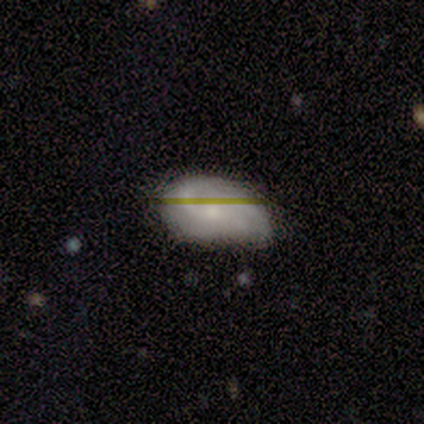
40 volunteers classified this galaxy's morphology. This is possibly a featured or disk galaxy (52%). It is clearly not viewed edge-on (90%). Bar: likely no (63%). Spiral arm pattern: clearly yes (95%). Spiral arm count: possibly 2 (50%). Spiral winding: marginally medium (44%). Central bulge: possibly small (47%). Merging: likely none (65%).